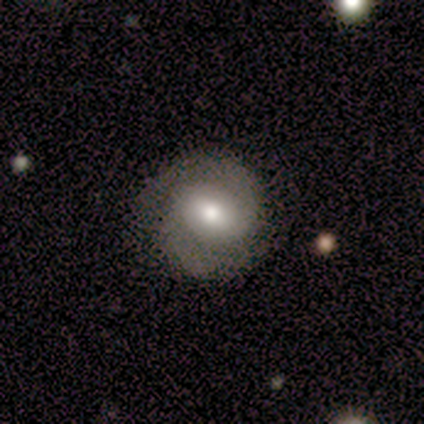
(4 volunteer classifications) This is possibly a featured or disk galaxy (50%). It is clearly not viewed edge-on (100%). Bar: clearly weak (100%). Spiral arm pattern: clearly yes (100%). Spiral arm count: clearly 2 (100%). Spiral winding: clearly medium (100%). Central bulge: clearly moderate (100%). Merging: likely minor disturbance (67%).